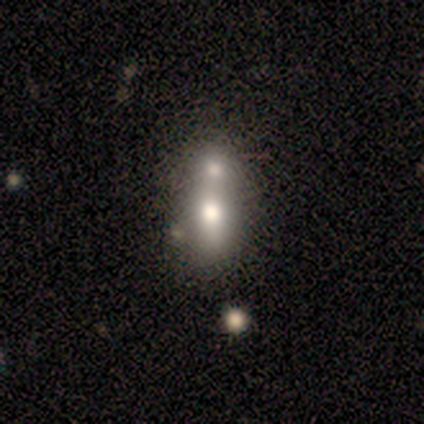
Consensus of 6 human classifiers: Smooth or featured: smooth — 83% (star or artifact — 17%)
How rounded: in between — 80% (round — 20%)
Merging: merger — 80% (none — 20%)